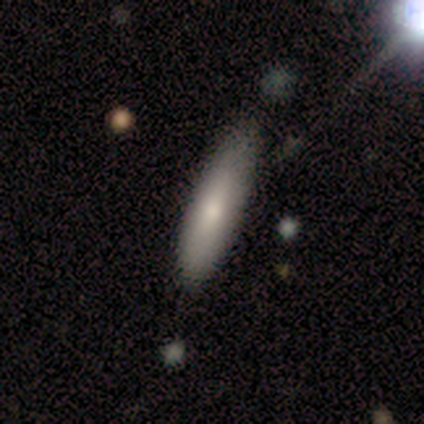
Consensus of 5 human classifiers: smooth-or-featured: smooth: 100% | featured or disk: 0% | star or artifact: 0%
  how-rounded: cigar-shaped: 80% | in between: 20% | round: 0%
  merging: minor disturbance: 80% | none: 20% | major disturbance: 0% | merger: 0%